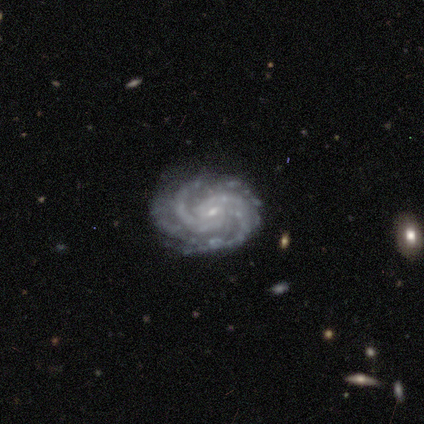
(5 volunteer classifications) This appears to be a featured or disk galaxy (80%) with no bar (75%), 2 (25%, tied with 3, 4 and can't tell) tight (75%) spiral arms (100%) and a small central bulge (100%). Merging: none (100%).